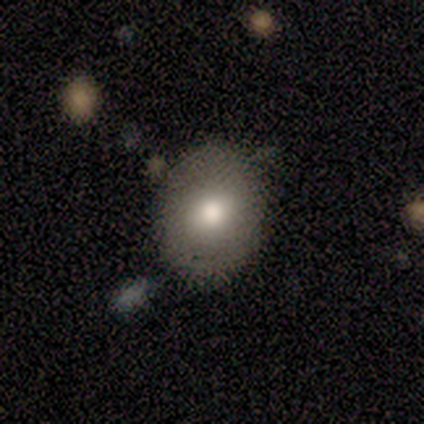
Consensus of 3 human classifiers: This is clearly a smooth galaxy (100%). How rounded: likely in between (67%). Merging: clearly none (100%).